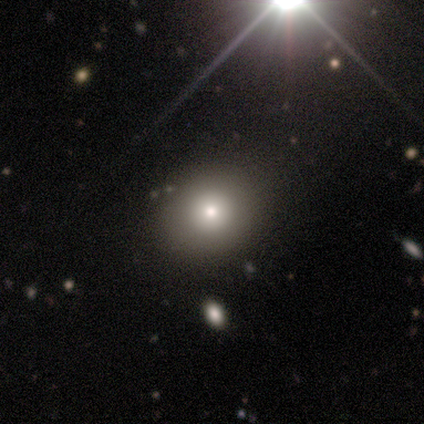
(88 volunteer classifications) This is likely a smooth galaxy (72%). How rounded: clearly round (83%). Merging: clearly none (89%).